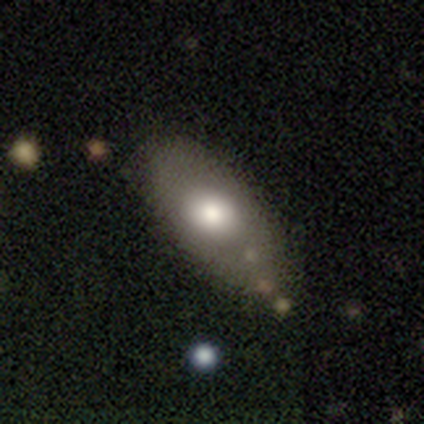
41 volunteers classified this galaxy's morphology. A smooth galaxy with no disk features (71%) that is in between round and cigar-shaped (86%). Merging: none (68%).